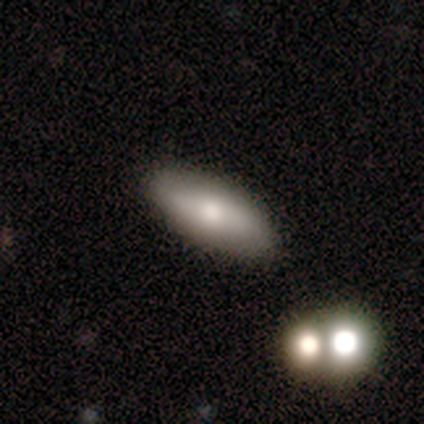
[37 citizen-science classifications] Smooth or featured: smooth — 54% (featured or disk — 41%)
How rounded: in between — 70% (cigar-shaped — 30%)
Merging: none — 83% (minor disturbance — 6%)